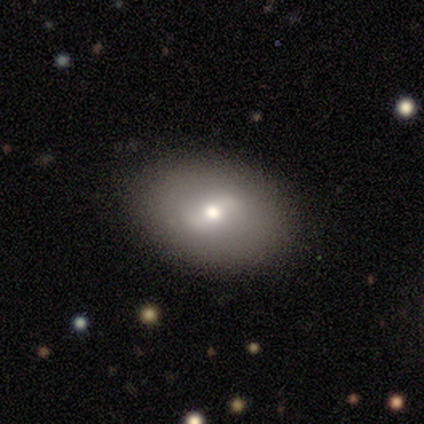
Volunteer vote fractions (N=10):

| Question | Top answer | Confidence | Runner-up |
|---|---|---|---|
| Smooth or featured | smooth | 70% | featured or disk (30%) |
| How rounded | in between | 57% | round (43%) |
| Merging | none | 70% | major disturbance (20%) |